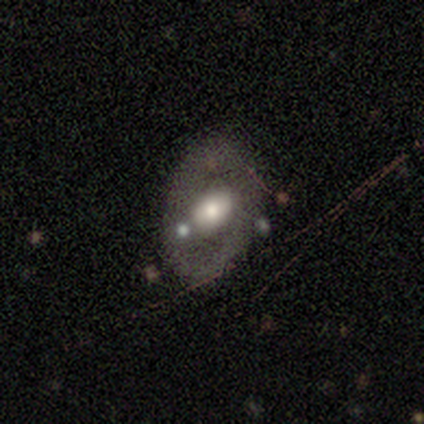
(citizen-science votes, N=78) Smooth or featured? 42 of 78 (54%) said featured or disk. Edge-on disk? 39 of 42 (93%) said no. Bar? 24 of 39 (62%) said no. Spiral arms? 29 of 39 (74%) said no. Bulge size? 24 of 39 (62%) said moderate. Merging? 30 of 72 (42%) said none.